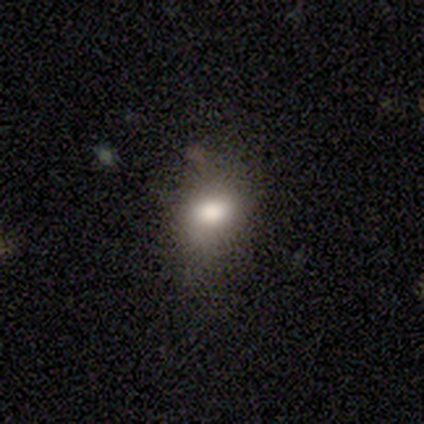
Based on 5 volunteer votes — A smooth galaxy with no disk features (60%) that is in between round and cigar-shaped (100%).

Vote fractions:
- Smooth or featured? smooth: 60% / featured or disk: 20% / star or artifact: 20%
- How rounded? in between: 100% / round: 0% / cigar-shaped: 0%
- Merging? none: 75% / major disturbance: 25% / minor disturbance: 0% / merger: 0%